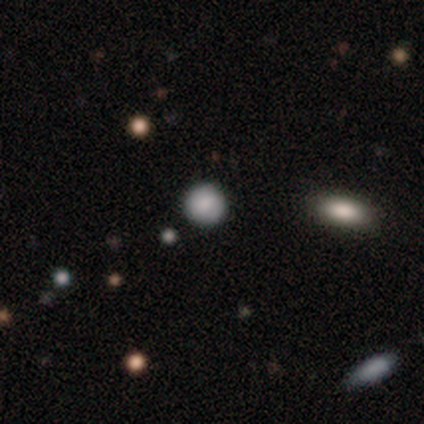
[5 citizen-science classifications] smooth_or_featured: smooth (p=0.80) [alt: star or artifact p=0.20]
how_rounded: round (p=1.00)
merging: none (p=1.00)